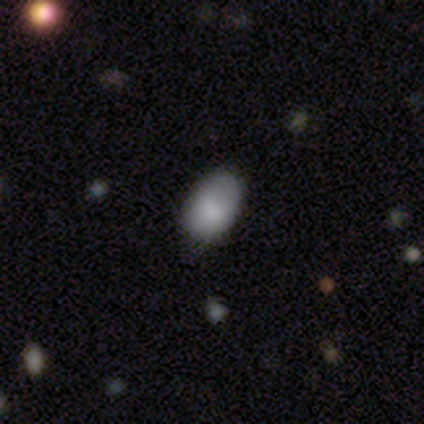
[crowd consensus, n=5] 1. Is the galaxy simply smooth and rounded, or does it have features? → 100% smooth, 0% featured or disk, 0% star or artifact.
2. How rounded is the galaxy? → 100% in between, 0% round, 0% cigar-shaped.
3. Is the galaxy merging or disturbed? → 60% none, 40% minor disturbance, 0% major disturbance, 0% merger.